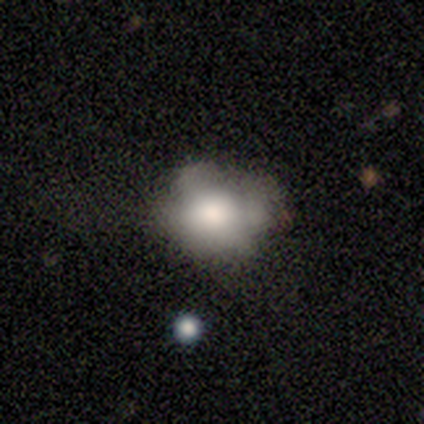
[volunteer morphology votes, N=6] Smooth or featured? 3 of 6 (50%, tied with featured or disk) said smooth. How rounded? 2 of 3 (67%) said in between. Merging? 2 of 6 (33%, tied with minor disturbance and major disturbance) said none.